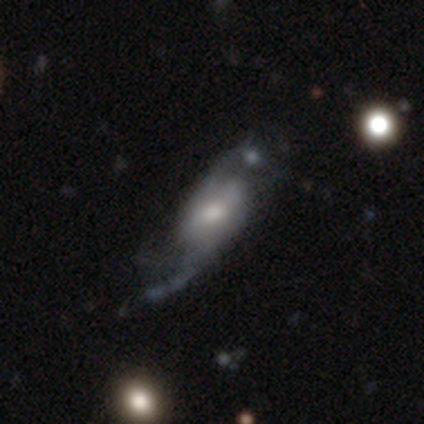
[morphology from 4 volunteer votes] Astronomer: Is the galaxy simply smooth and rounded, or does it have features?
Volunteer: featured or disk — 100%.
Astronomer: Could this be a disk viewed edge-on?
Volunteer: no — 100%.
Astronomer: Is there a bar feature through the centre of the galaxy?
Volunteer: no — 50%.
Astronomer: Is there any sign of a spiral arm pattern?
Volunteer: yes — 75%.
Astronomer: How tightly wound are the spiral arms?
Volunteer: tight — 67%.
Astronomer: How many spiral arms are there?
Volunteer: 2 — 67%.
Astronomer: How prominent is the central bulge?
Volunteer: moderate — 50%.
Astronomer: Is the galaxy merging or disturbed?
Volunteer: none — 75%.